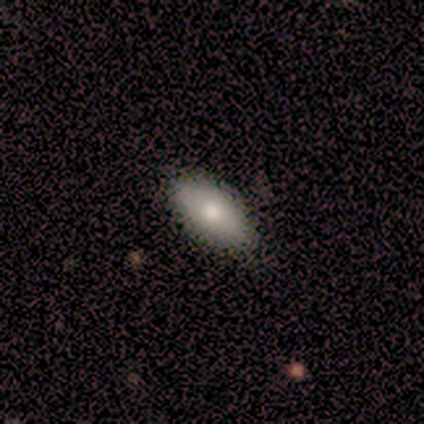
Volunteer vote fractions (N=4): smooth_or_featured: smooth (p=0.50) [tied with: featured or disk p=0.50]
how_rounded: in between (p=1.00)
merging: none (p=1.00)